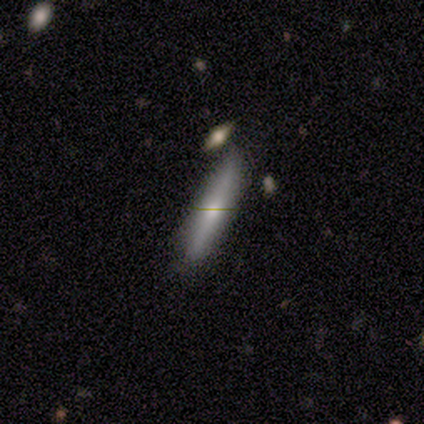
Smooth or featured: smooth — 75% (featured or disk — 25%)
How rounded: cigar-shaped — 67% (in between — 33%)
Merging: none — 100%